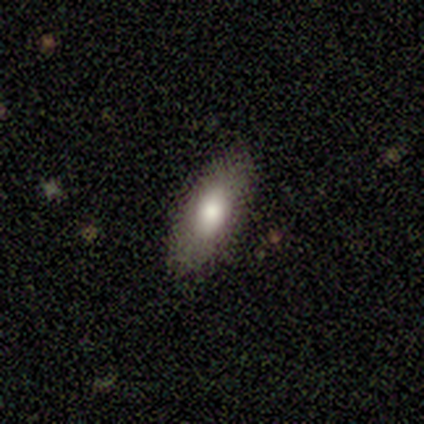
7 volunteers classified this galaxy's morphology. This is clearly a smooth galaxy (100%). How rounded: likely in between (71%). Merging: clearly none (100%).